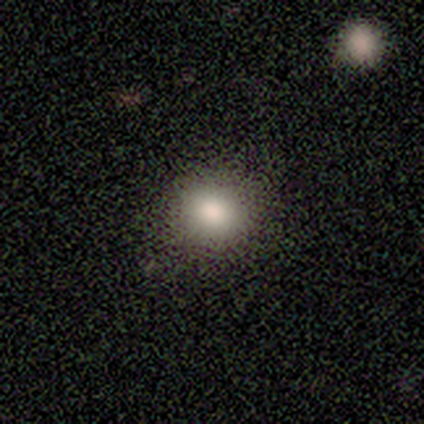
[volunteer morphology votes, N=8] A smooth galaxy with no disk features (100%) that is round (88%). Merging: none (75%).